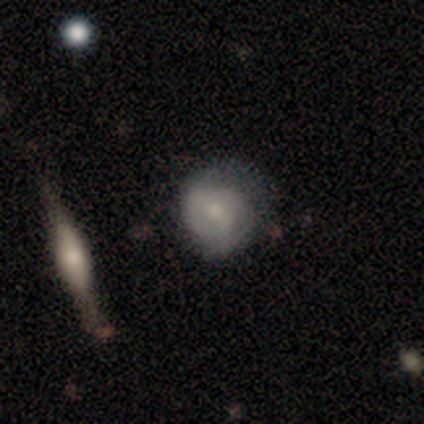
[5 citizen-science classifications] Morphology: type=featured or disk (100%); edge-on=no (100%); bar=no (60%); spiral arms=yes (60%); winding=tight (67%); arm count=2 (100%); bulge=small (60%); merging=none (60%).